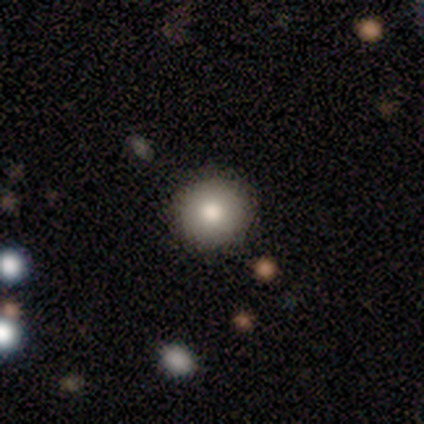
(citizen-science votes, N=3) Morphology: type=smooth (67%); roundness=round (100%); merging=none (100%).